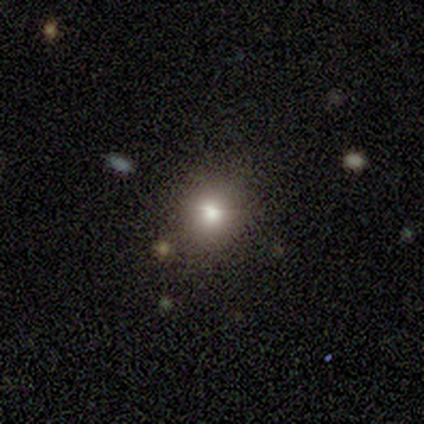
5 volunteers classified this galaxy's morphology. Smooth or featured? smooth (80%)
How rounded? round (50%, tied with in between)
Merging? none (100%)